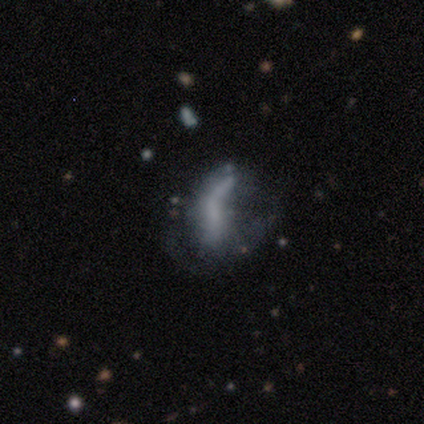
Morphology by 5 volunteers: Smooth or featured: featured or disk — 60% (smooth — 20%)
Edge-on disk: no — 100%
Bar: no — 67% (strong — 33%)
Spiral arms: yes — 67% (no — 33%)
Spiral winding: tight — 50% (tied with loose — 50%)
Spiral arm count: 2 — 50% (tied with can't tell — 50%)
Bulge size: none — 100%
Merging: major disturbance — 75% (merger — 25%)